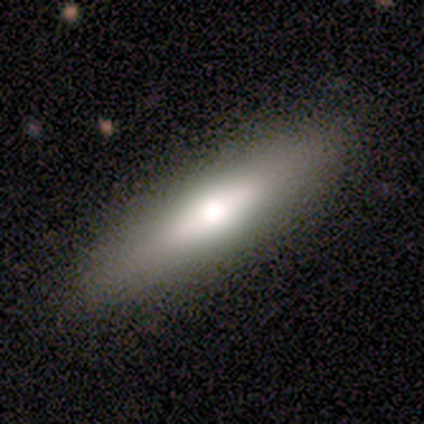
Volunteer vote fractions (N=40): Smooth or featured? 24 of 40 (60%) said smooth. How rounded? 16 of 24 (67%) said cigar-shaped. Merging? 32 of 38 (84%) said none.